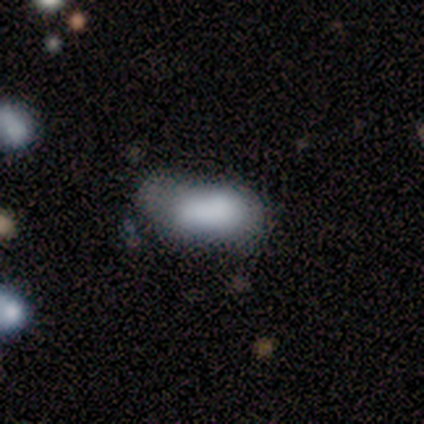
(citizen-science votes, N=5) smooth-or-featured: smooth: 80% | featured or disk: 20% | star or artifact: 0%
  how-rounded: in between: 75% | cigar-shaped: 25% | round: 0%
  merging: minor disturbance: 60% | major disturbance: 20% | merger: 20% | none: 0%